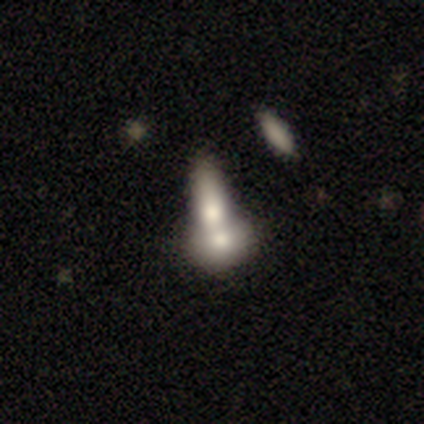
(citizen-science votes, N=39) Smooth or featured: smooth — 72% (featured or disk — 26%)
How rounded: in between — 79% (round — 14%)
Merging: merger — 74% (none — 11%)